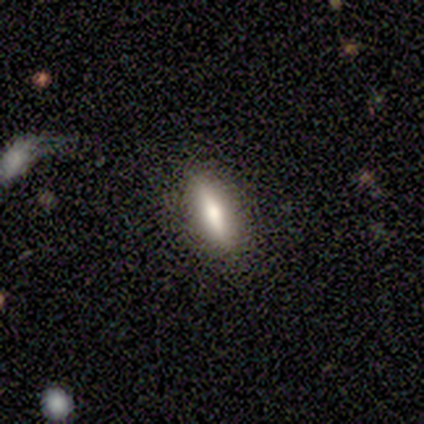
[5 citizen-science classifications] Q: Smooth or featured?
A: smooth (80%); runner-up: featured or disk (20%)
Q: How rounded?
A: in between (75%); runner-up: cigar-shaped (25%)
Q: Merging?
A: none (100%)